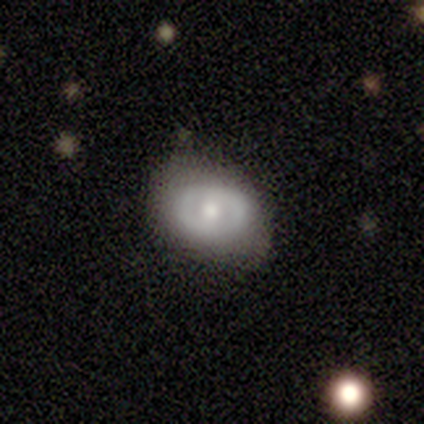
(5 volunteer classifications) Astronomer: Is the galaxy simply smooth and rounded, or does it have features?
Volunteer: featured or disk — 100%.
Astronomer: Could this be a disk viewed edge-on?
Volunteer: no — 100%.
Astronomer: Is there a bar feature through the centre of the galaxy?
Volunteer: no — 60%.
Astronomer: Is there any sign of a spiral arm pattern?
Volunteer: yes — 60% (runner-up: no, 40%).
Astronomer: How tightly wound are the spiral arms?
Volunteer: tight — 100%.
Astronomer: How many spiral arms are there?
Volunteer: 2 — 100%.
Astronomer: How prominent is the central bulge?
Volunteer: moderate — 80%.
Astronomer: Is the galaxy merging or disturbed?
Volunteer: none — 100%.